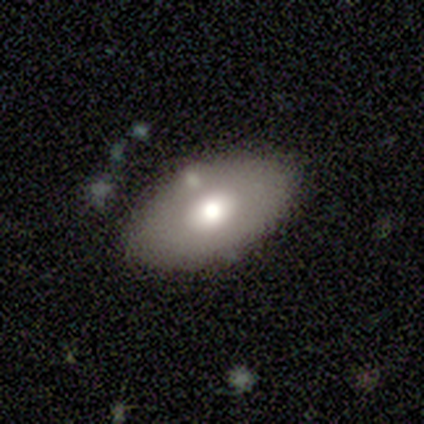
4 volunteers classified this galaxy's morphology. smooth 75%, featured or disk 25%, star or artifact 0%. Down the decision tree: how rounded — in between (100%); merging — none (75%).